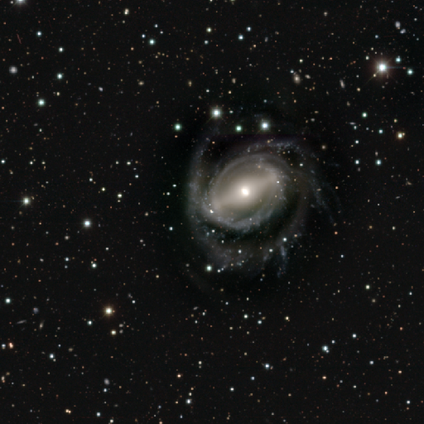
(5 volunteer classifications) Smooth or featured: featured or disk — 100%
Edge-on disk: no — 100%
Bar: strong — 60% (weak — 20%)
Spiral arms: yes — 100%
Spiral winding: tight — 40% (tied with loose — 40%)
Spiral arm count: 2 — 40% (tied with 3 — 40%)
Bulge size: small — 60% (moderate — 40%)
Merging: none — 80% (minor disturbance — 20%)